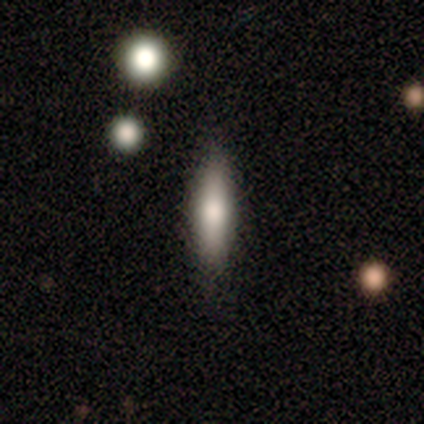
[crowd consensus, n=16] This appears to be a smooth galaxy with no disk features (81%) that is cigar-shaped (77%). Merging: none (87%).